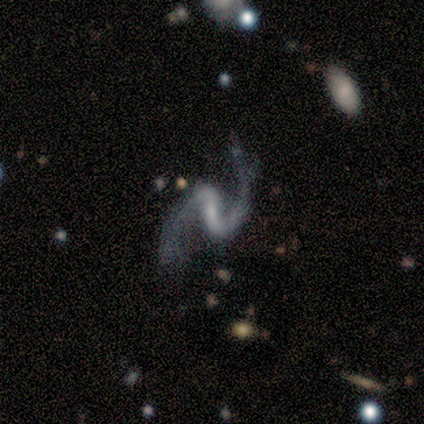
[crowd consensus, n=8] A featured or disk galaxy (100%) with a strong bar (75%), 2 (100%) loose (62%) spiral arms (100%) and a small central bulge (38%).

Vote fractions:
- Smooth or featured? featured or disk: 100% / smooth: 0% / star or artifact: 0%
- Edge-on disk? no: 100% / yes: 0%
- Bar? strong: 75% / weak: 12% / no: 12%
- Spiral arms? yes: 100% / no: 0%
- Spiral winding? loose: 62% / medium: 38% / tight: 0%
- Spiral arm count? 2: 100% / 1: 0% / 3: 0% / 4: 0% / more than 4: 0% / can't tell: 0%
- Bulge size? small: 38% / moderate: 25% / none: 25% / large: 12% / dominant: 0%
- Merging? none: 75% / minor disturbance: 25% / major disturbance: 0% / merger: 0%